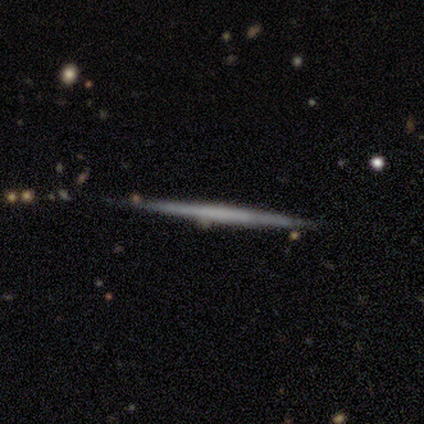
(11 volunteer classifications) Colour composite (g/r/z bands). It shows a smooth galaxy with no disk features (55%) that is cigar-shaped (100%). Merging: none (100%).